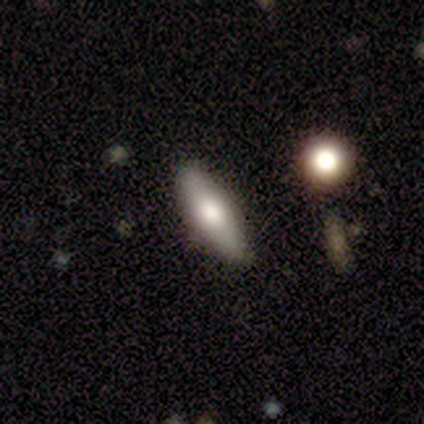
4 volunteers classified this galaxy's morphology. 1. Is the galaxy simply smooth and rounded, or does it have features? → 75% smooth, 25% featured or disk, 0% star or artifact.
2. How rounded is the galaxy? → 67% in between, 33% cigar-shaped, 0% round.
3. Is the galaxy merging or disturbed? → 100% none, 0% minor disturbance, 0% major disturbance, 0% merger.